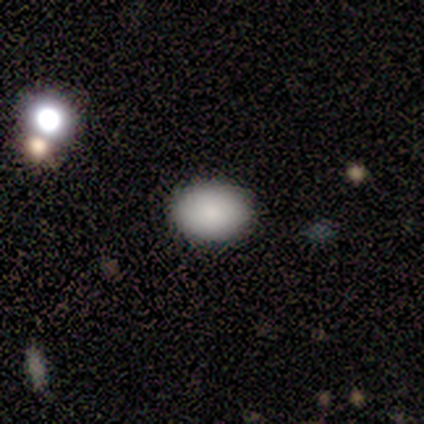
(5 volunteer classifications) Smooth or featured?
  - smooth: 80% *
  - star or artifact: 20%
  - featured or disk: 0%
How rounded?
  - round: 50% * (tied)
  - in between: 50% * (tied)
  - cigar-shaped: 0%
Merging?
  - none: 100% *
  - minor disturbance: 0%
  - major disturbance: 0%
  - merger: 0%